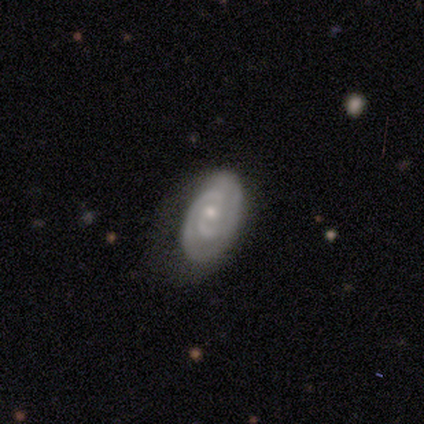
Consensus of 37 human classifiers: Volunteers were most divided on "bulge size": small: 55%, moderate: 45%, dominant: 0%, large: 0%, none: 0%. More confident: edge-on disk — no (100%); spiral arms — yes (100%); spiral arm count — 2 (84%); smooth or featured — featured or disk (84%); merging — none (67%); spiral winding — tight (65%); bar — no (58%).